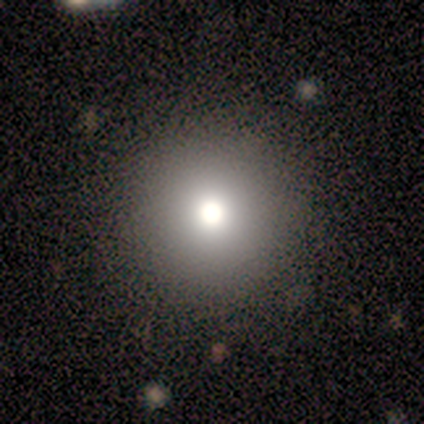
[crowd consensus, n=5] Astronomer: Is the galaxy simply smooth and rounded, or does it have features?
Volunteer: smooth — 80%.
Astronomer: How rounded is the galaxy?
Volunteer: round — 100%.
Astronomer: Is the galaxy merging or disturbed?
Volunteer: none — 100%.